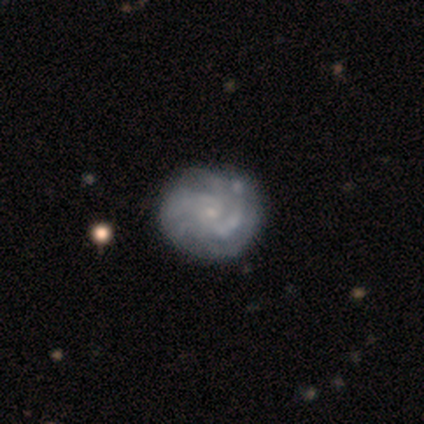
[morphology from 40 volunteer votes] Smooth or featured? featured or disk (90%)
Edge-on disk? no (100%)
Bar? no (89%)
Spiral arms? yes (94%)
Spiral winding? tight (65%)
Spiral arm count? can't tell (35%)
Bulge size? small (78%)
Merging? none (59%)